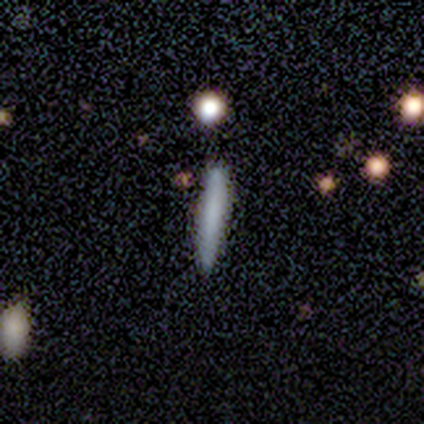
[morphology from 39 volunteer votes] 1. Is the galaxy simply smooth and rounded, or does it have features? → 69% smooth, 18% featured or disk, 13% star or artifact.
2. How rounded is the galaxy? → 100% cigar-shaped, 0% round, 0% in between.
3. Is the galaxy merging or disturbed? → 88% none, 9% minor disturbance, 3% major disturbance, 0% merger.